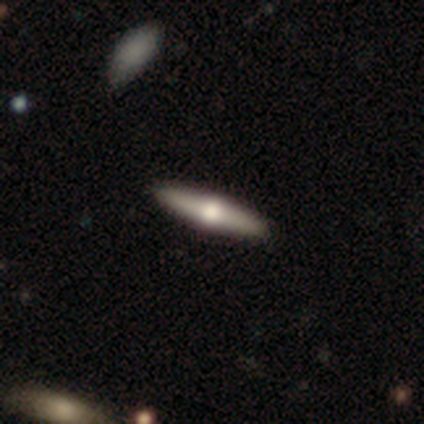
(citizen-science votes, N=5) Morphology: type=featured or disk (60%); edge-on=yes (100%); edge-on bulge=rounded (100%); merging=none (80%).